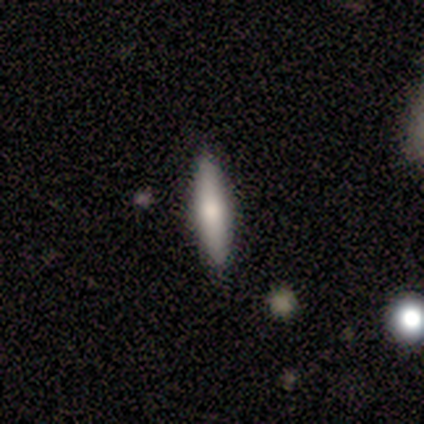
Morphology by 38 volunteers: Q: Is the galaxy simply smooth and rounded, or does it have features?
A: smooth — 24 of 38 (63%).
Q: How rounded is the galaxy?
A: cigar-shaped — 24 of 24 (100%).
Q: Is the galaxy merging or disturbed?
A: none — 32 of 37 (86%).